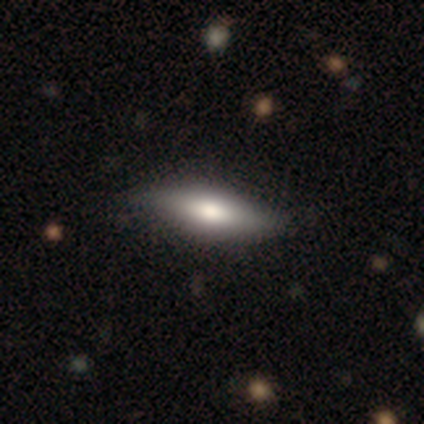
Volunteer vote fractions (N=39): smooth-or-featured: smooth: 67% | featured or disk: 31% | star or artifact: 3%
  how-rounded: in between: 50% (tied) | cigar-shaped: 50% (tied) | round: 0%
  merging: none: 58% | minor disturbance: 16% | merger: 3% | major disturbance: 0%